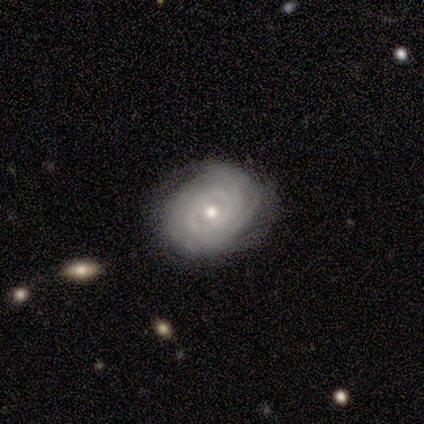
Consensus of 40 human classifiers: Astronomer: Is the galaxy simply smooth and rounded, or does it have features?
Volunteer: featured or disk — 82%.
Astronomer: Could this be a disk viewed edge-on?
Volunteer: no — 97%.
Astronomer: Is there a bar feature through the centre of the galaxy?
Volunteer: no — 84%.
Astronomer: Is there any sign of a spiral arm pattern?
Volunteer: yes — 91%.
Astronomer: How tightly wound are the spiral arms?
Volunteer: tight — 93%.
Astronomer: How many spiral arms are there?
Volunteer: can't tell — 38% (runner-up: 3, 24%).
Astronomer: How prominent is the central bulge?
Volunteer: moderate — 84%.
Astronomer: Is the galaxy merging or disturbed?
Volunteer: none — 76%.